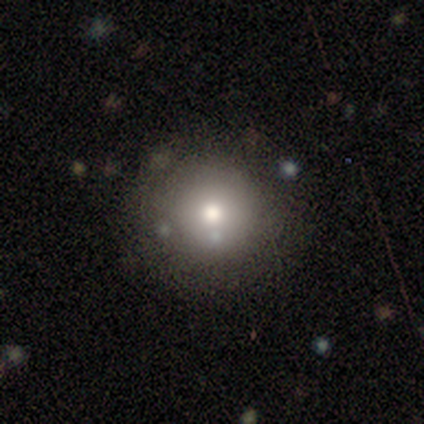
Smooth or featured? smooth (86%)
How rounded? round (83%)
Merging? none (83%)